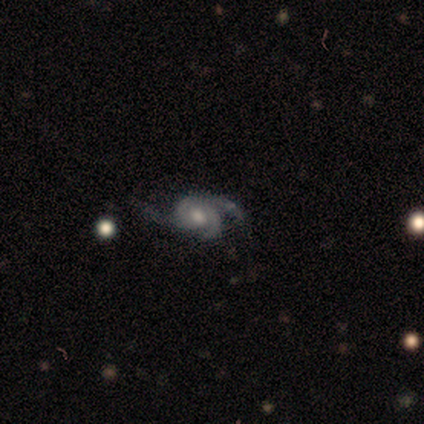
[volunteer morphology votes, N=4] smooth_or_featured: featured or disk (p=1.00)
disk_edge_on: no (p=0.75) [alt: yes p=0.25]
bar: no (p=1.00)
has_spiral_arms: yes (p=1.00)
spiral_winding: tight (p=0.33) [tied with: medium p=0.33, loose p=0.33]
spiral_arm_count: 2 (p=0.33) [tied with: 3 p=0.33, can't tell p=0.33]
bulge_size: moderate (p=0.67) [alt: small p=0.33]
merging: minor disturbance (p=0.50) [alt: none p=0.25]